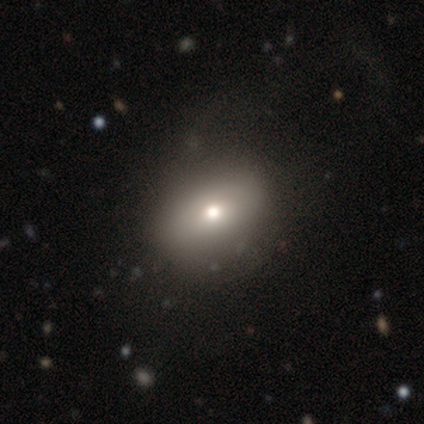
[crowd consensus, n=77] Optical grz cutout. It shows a smooth galaxy with no disk features (78%) that is in between round and cigar-shaped (73%). Merging: none (36%).